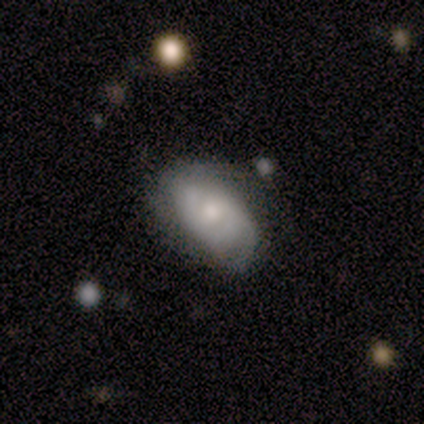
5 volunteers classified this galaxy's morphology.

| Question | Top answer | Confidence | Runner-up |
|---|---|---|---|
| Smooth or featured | featured or disk | 100% | — |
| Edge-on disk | no | 100% | — |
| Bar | no | 80% | weak (20%) |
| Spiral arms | yes | 100% | — |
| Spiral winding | tight | 40% | tied: medium (40%) |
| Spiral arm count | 1 | 40% | tied: 2 (40%) |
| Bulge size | moderate | 60% | small (40%) |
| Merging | none | 60% | minor disturbance (40%) |